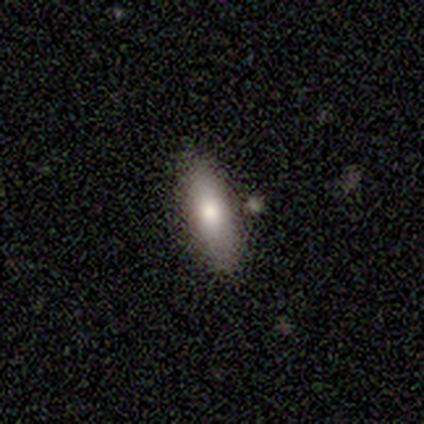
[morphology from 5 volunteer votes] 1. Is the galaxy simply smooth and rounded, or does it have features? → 100% smooth, 0% featured or disk, 0% star or artifact.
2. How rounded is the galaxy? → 80% in between, 20% cigar-shaped, 0% round.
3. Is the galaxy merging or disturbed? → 80% none, 20% minor disturbance, 0% major disturbance, 0% merger.